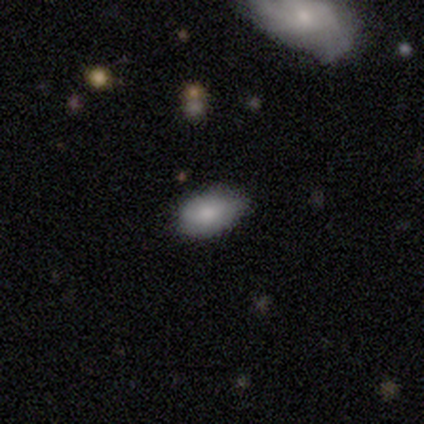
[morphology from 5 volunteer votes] smooth_or_featured: smooth (p=0.80) [alt: featured or disk p=0.20]
how_rounded: round (p=0.50) [tied with: in between p=0.50]
merging: none (p=0.60) [alt: minor disturbance p=0.40]